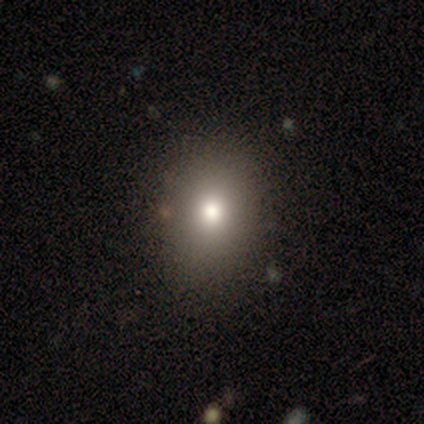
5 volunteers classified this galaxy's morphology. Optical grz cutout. It shows a smooth galaxy with no disk features (40%, tied with star or artifact) that is round (50%, tied with in between). Merging: none (100%).